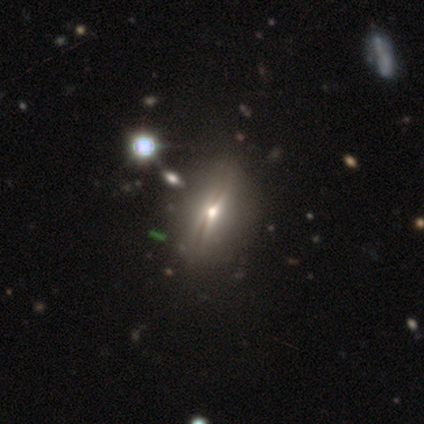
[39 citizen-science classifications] Volunteers were most divided on "smooth or featured": featured or disk: 54%, smooth: 38%, star or artifact: 8%. More confident: edge-on bulge — rounded (88%); edge-on disk — yes (76%); merging — none (56%).